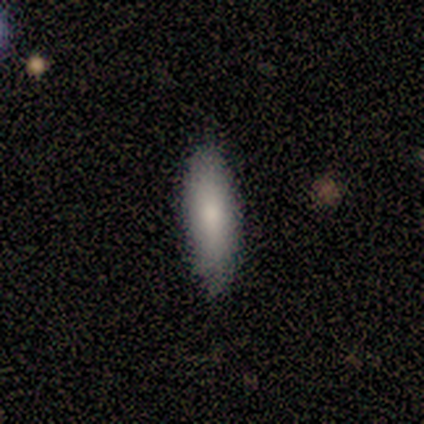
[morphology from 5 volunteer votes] Smooth or featured? smooth (100%)
How rounded? in between (80%)
Merging? none (100%)